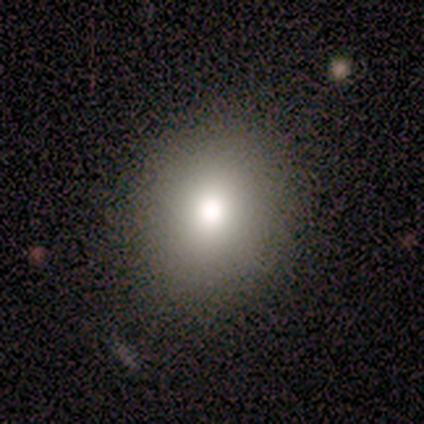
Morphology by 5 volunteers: type=smooth (100%); roundness=in between (60%); merging=none (80%).